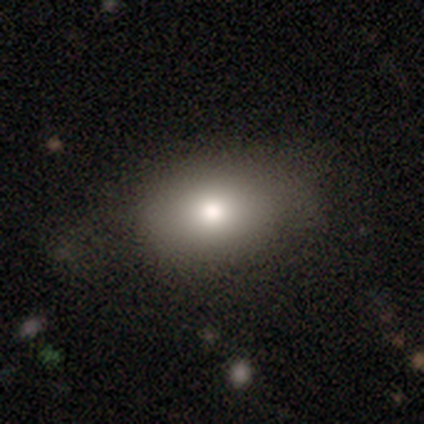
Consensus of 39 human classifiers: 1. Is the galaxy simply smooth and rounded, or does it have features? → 90% smooth, 5% featured or disk, 5% star or artifact.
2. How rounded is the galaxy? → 86% in between, 14% round, 0% cigar-shaped.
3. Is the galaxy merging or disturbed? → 68% none, 22% minor disturbance, 11% major disturbance, 0% merger.